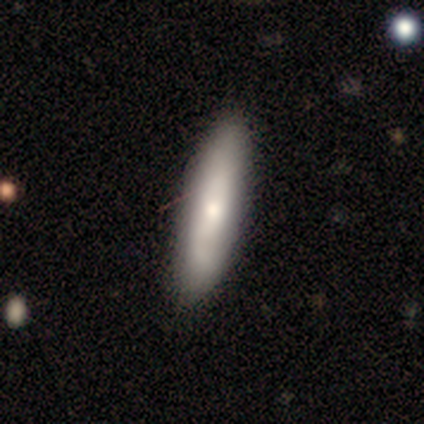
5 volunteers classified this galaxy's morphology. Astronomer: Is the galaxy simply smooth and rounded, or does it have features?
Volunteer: smooth — 80%.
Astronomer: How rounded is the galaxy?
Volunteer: in between — 50%, tied with cigar-shaped at 50%.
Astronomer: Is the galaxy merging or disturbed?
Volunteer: none — 100%.